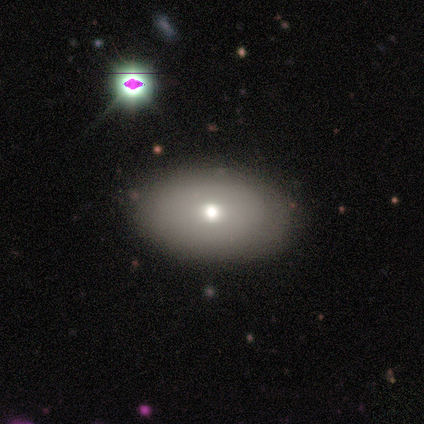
Volunteers were most divided on "smooth or featured": smooth: 67%, featured or disk: 33%, star or artifact: 0%. More confident: how rounded — in between (100%); merging — none (100%).